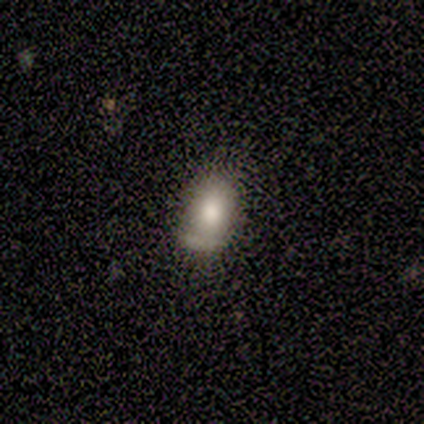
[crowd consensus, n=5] smooth-or-featured: smooth: 80% | featured or disk: 20% | star or artifact: 0%
  how-rounded: round: 50% (tied) | in between: 50% (tied) | cigar-shaped: 0%
  merging: minor disturbance: 60% | none: 40% | major disturbance: 0% | merger: 0%